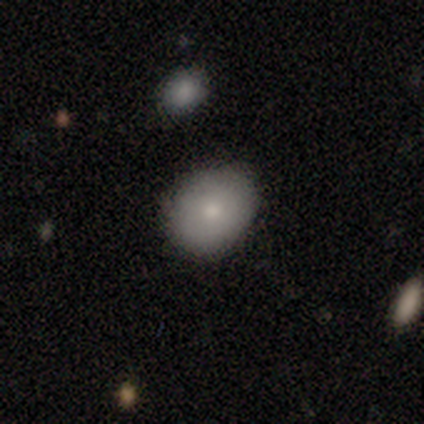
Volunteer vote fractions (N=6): Morphology: type=smooth (83%); roundness=in between (60%); merging=none (83%).